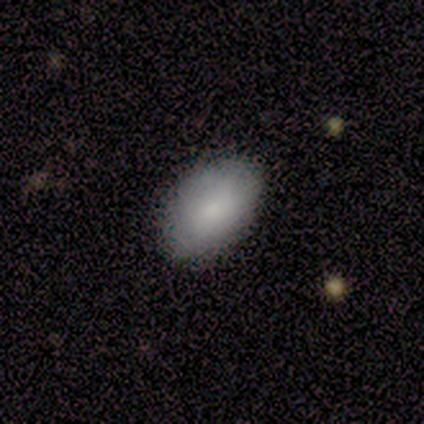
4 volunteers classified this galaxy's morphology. Consensus on every question: smooth or featured — smooth (100%); how rounded — in between (100%); merging — none (100%).